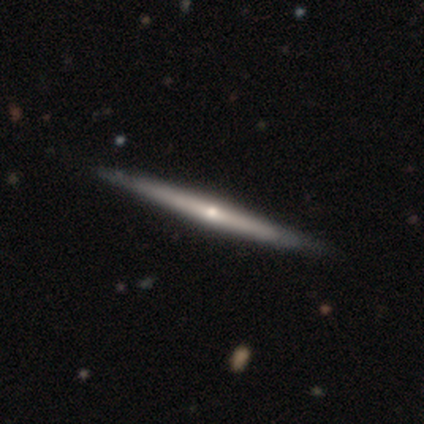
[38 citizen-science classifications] Q: Smooth or featured?
A: featured or disk (76%); runner-up: smooth (21%)
Q: Edge-on disk?
A: yes (97%); runner-up: no (3%)
Q: Edge-on bulge?
A: rounded (75%); runner-up: none (18%)
Q: Merging?
A: none (76%); runner-up: minor disturbance (3%)